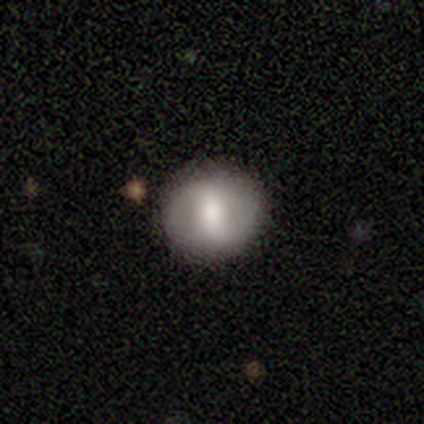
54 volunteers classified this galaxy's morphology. Overall: smooth (52%; featured or disk 43%). How rounded: round (86%). Merging: none (86%).